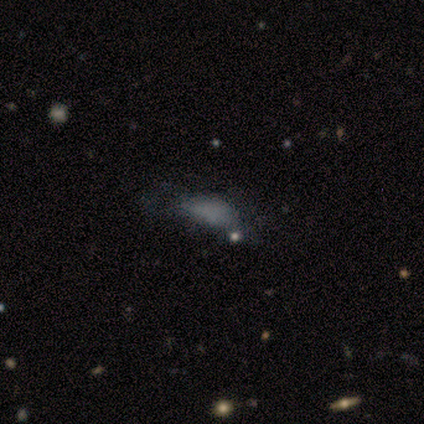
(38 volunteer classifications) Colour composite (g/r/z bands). It shows a smooth galaxy with no disk features (53%) that is in between round and cigar-shaped (80%). Merging: minor disturbance (34%).